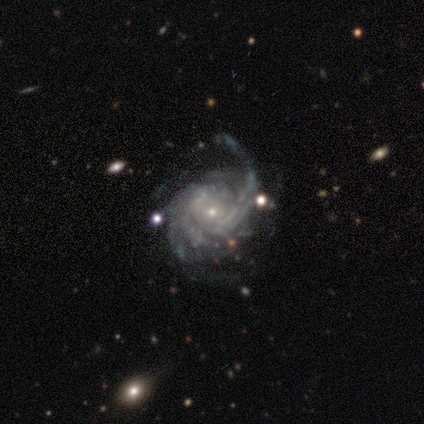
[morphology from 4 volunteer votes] A featured or disk galaxy (100%) with no bar (100%), tight (50%, tied with medium) spiral arms (100%) and a small central bulge (100%).

Vote fractions:
- Smooth or featured? featured or disk: 100% / smooth: 0% / star or artifact: 0%
- Edge-on disk? no: 100% / yes: 0%
- Bar? no: 100% / strong: 0% / weak: 0%
- Spiral arms? yes: 100% / no: 0%
- Spiral winding? tight: 50% (tied) / medium: 50% (tied) / loose: 0%
- Spiral arm count? can't tell: 50% / 2: 25% / 4: 25% / 1: 0% / 3: 0% / more than 4: 0%
- Bulge size? small: 100% / dominant: 0% / large: 0% / moderate: 0% / none: 0%
- Merging? none: 50% (tied) / major disturbance: 50% (tied) / minor disturbance: 0% / merger: 0%